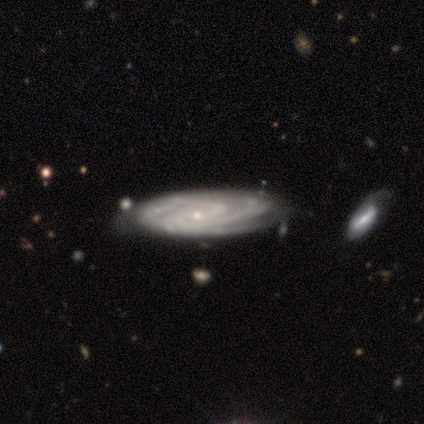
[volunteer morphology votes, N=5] A featured or disk galaxy (80%) with no bar (75%), tight (75%) spiral arms (100%) and a small central bulge (75%).

Vote fractions:
- Smooth or featured? featured or disk: 80% / star or artifact: 20% / smooth: 0%
- Edge-on disk? no: 100% / yes: 0%
- Bar? no: 75% / weak: 25% / strong: 0%
- Spiral arms? yes: 100% / no: 0%
- Spiral winding? tight: 75% / medium: 25% / loose: 0%
- Spiral arm count? can't tell: 50% / 2: 25% / 4: 25% / 1: 0% / 3: 0% / more than 4: 0%
- Bulge size? small: 75% / none: 25% / dominant: 0% / large: 0% / moderate: 0%
- Merging? none: 50% (tied) / minor disturbance: 50% (tied) / major disturbance: 0% / merger: 0%